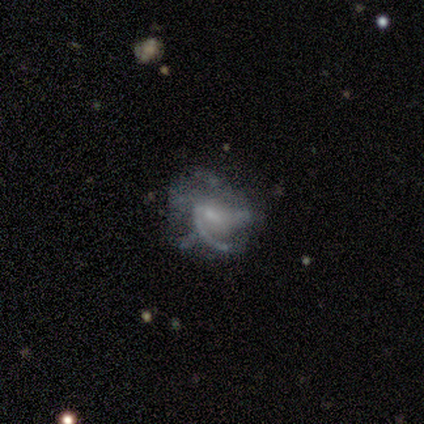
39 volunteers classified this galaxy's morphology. Smooth or featured? 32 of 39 (82%) said featured or disk. Edge-on disk? 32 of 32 (100%) said no. Bar? 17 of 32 (53%) said weak. Spiral arms? 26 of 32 (81%) said yes. Spiral winding? 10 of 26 (38%) said loose. Spiral arm count? 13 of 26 (50%) said can't tell. Bulge size? 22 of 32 (69%) said small. Merging? 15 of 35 (43%, tied with major disturbance) said none.